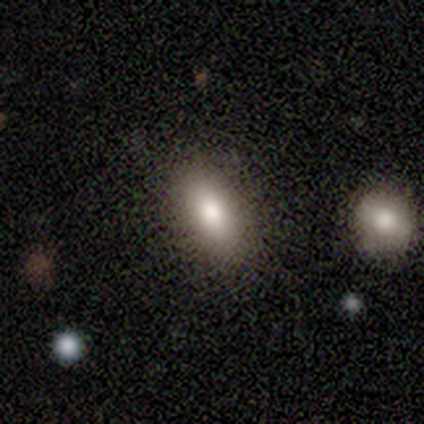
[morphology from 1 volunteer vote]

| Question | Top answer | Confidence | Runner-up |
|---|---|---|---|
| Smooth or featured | smooth | 100% | — |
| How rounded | in between | 100% | — |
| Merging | none | 100% | — |